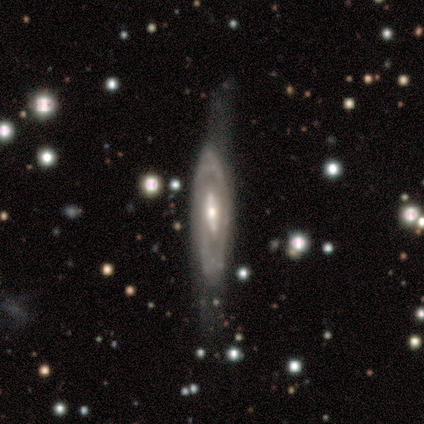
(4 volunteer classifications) A featured or disk galaxy (75%) with a strong bar (67%), 1 (50%, tied with can't tell) tight (100%) spiral arms (67%) and a moderate central bulge (67%).

Vote fractions:
- Smooth or featured? featured or disk: 75% / smooth: 25% / star or artifact: 0%
- Edge-on disk? no: 100% / yes: 0%
- Bar? strong: 67% / no: 33% / weak: 0%
- Spiral arms? yes: 67% / no: 33%
- Spiral winding? tight: 100% / medium: 0% / loose: 0%
- Spiral arm count? 1: 50% (tied) / can't tell: 50% (tied) / 2: 0% / 3: 0% / 4: 0% / more than 4: 0%
- Bulge size? moderate: 67% / small: 33% / dominant: 0% / large: 0% / none: 0%
- Merging? major disturbance: 75% / minor disturbance: 25% / none: 0% / merger: 0%